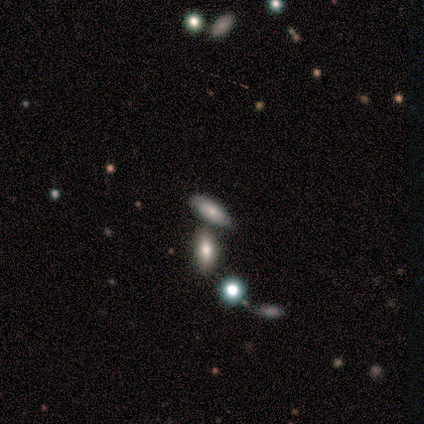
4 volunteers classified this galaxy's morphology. Q: Smooth or featured?
A: featured or disk (50%); runner-up: smooth (25%)
Q: Edge-on disk?
A: no (100%)
Q: Bar?
A: no (100%)
Q: Spiral arms?
A: no (100%)
Q: Bulge size?
A: dominant (50%); tied with: small (50%)
Q: Merging?
A: merger (67%); runner-up: none (33%)